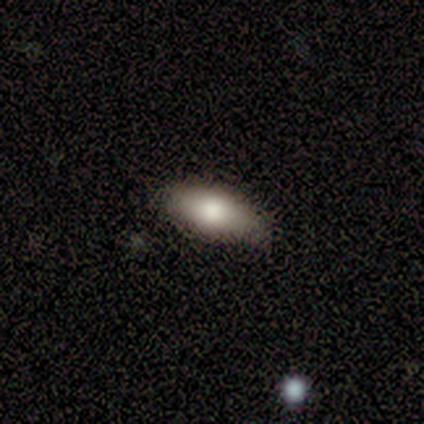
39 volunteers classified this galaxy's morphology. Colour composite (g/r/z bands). It shows a smooth galaxy with no disk features (85%) that is in between round and cigar-shaped (88%). Merging: none (82%).